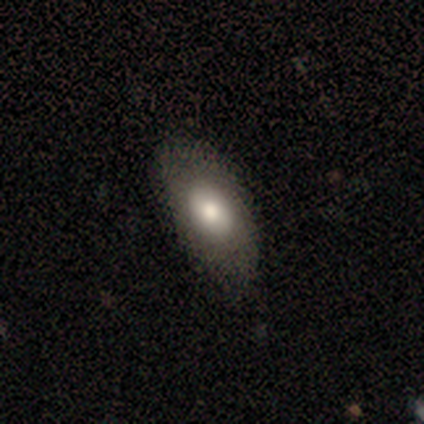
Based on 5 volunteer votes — smooth 100%, featured or disk 0%, star or artifact 0%. Down the decision tree: how rounded — in between (100%); merging — none (100%).